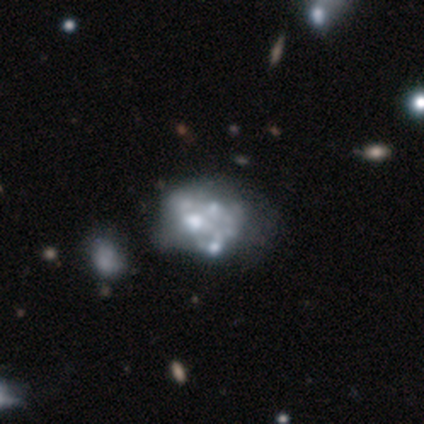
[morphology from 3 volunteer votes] featured or disk 67%, star or artifact 33%, smooth 0%. Down the decision tree: edge-on disk — no (100%); bar — no (100%); spiral arms — no (100%); bulge size — moderate (100%); merging — none (50%, tied with minor disturbance).